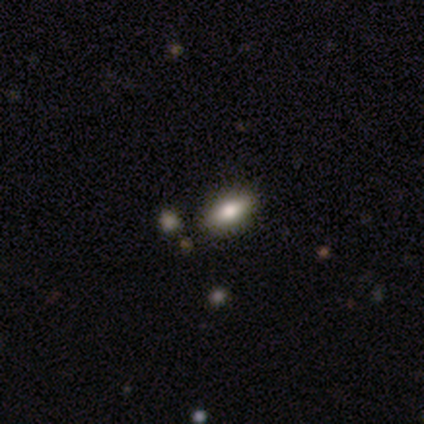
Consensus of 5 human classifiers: This is clearly a smooth galaxy (80%). How rounded: likely in between (75%). Merging: clearly none (100%).